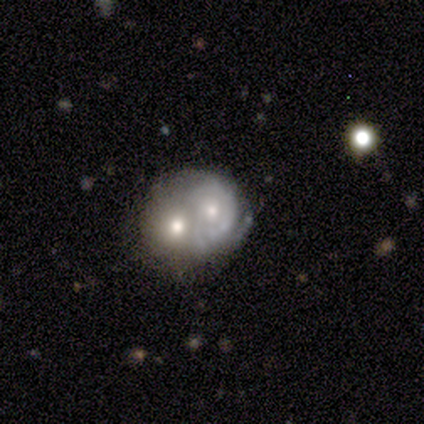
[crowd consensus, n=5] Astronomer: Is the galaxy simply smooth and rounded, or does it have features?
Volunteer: featured or disk — 80%.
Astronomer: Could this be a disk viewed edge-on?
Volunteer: no — 100%.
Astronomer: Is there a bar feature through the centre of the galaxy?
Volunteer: no — 100%.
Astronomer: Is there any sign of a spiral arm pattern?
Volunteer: yes — 50%, tied with no at 50%.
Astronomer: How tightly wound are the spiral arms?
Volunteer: tight — 100%.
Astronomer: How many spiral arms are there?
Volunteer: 2 — 100%.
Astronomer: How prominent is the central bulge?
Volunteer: small — 75%.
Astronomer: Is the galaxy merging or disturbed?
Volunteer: merger — 80%.